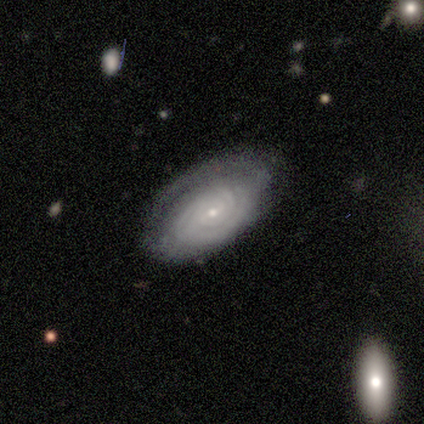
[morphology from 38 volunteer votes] Smooth or featured? featured or disk (71%)
Edge-on disk? no (100%)
Bar? weak (48%)
Spiral arms? yes (100%)
Spiral winding? tight (89%)
Spiral arm count? can't tell (59%)
Bulge size? small (93%)
Merging? none (72%)